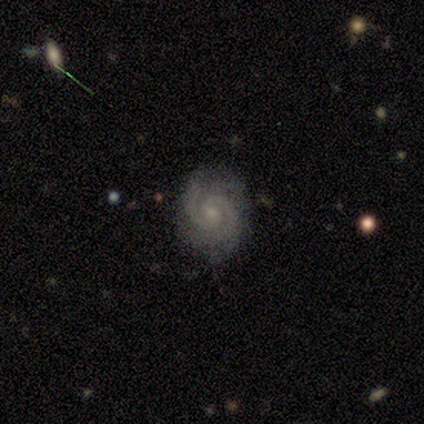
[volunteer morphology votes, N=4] This is likely a featured or disk galaxy (75%). It is clearly not viewed edge-on (100%). Bar: clearly weak (100%). Spiral arm pattern: clearly yes (100%). Spiral arm count: clearly 2 (100%). Spiral winding: likely medium (67%). Central bulge: likely small (67%). Merging: clearly none (100%).